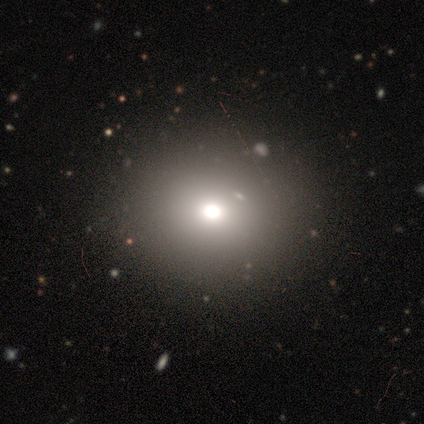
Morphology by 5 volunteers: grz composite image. It shows a smooth galaxy with no disk features (60%) that is round (67%). Merging: none (100%).